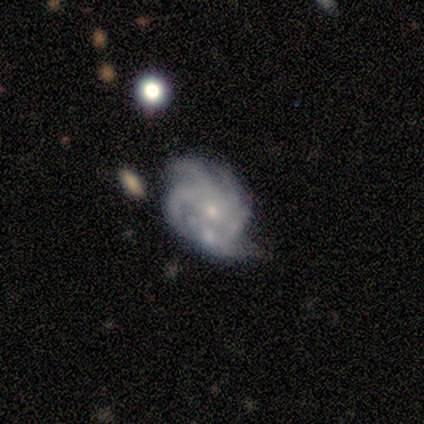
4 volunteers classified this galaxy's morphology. Smooth or featured? 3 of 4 (75%) said featured or disk. Edge-on disk? 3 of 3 (100%) said no. Bar? 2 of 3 (67%) said no. Spiral arms? 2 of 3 (67%) said yes. Spiral winding? 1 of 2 (50%, tied with medium) said tight. Spiral arm count? 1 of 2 (50%, tied with can't tell) said 4. Bulge size? 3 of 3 (100%) said small. Merging? 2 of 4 (50%) said minor disturbance.